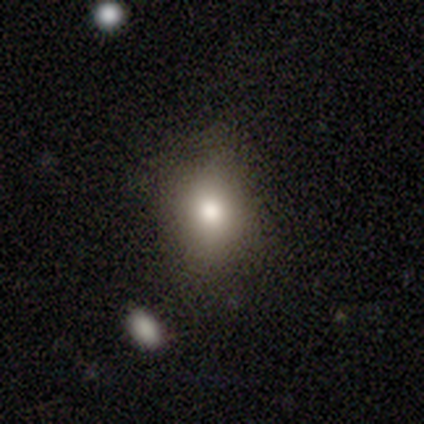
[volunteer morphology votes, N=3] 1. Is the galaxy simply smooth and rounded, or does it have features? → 67% star or artifact, 33% smooth, 0% featured or disk.